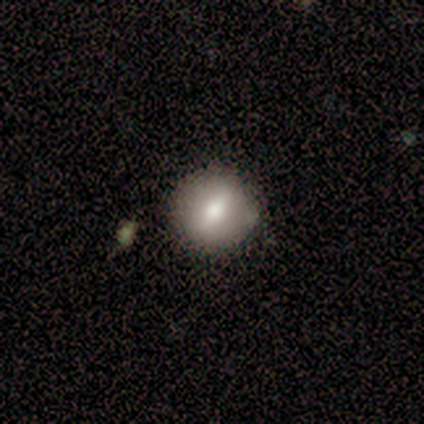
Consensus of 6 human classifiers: A smooth galaxy with no disk features (83%) that is round (100%).

Vote fractions:
- Smooth or featured? smooth: 83% / featured or disk: 17% / star or artifact: 0%
- How rounded? round: 100% / in between: 0% / cigar-shaped: 0%
- Merging? none: 100% / minor disturbance: 0% / major disturbance: 0% / merger: 0%